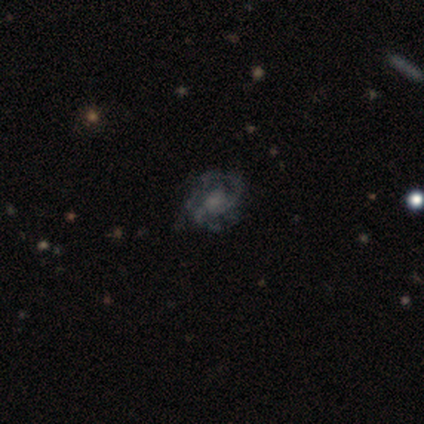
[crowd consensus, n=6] Smooth or featured?
  - featured or disk: 83% *
  - smooth: 17%
  - star or artifact: 0%
Edge-on disk?
  - no: 100% *
  - yes: 0%
Bar?
  - no: 80% *
  - weak: 20%
  - strong: 0%
Spiral arms?
  - yes: 80% *
  - no: 20%
Spiral winding?
  - medium: 50% * (tied)
  - loose: 50% * (tied)
  - tight: 0%
Spiral arm count?
  - 2: 50% *
  - more than 4: 25%
  - can't tell: 25%
  - 1: 0%
  - 3: 0%
  - 4: 0%
Bulge size?
  - moderate: 40% * (tied)
  - small: 40% * (tied)
  - none: 20%
  - dominant: 0%
  - large: 0%
Merging?
  - minor disturbance: 50% *
  - none: 33%
  - major disturbance: 17%
  - merger: 0%